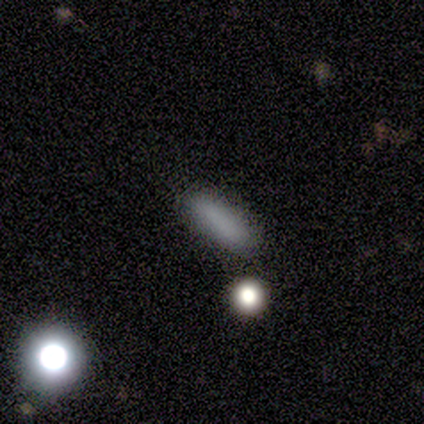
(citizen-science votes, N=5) smooth-or-featured: smooth: 80% | star or artifact: 20% | featured or disk: 0%
  how-rounded: in between: 75% | cigar-shaped: 25% | round: 0%
  merging: none: 75% | minor disturbance: 25% | major disturbance: 0% | merger: 0%